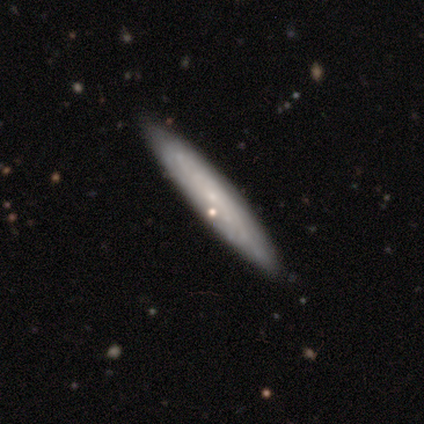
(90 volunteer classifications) This is possibly a featured or disk galaxy (50%). It is likely viewed edge-on (60%). Edge-on bulge: likely none (78%). Merging: clearly none (89%).